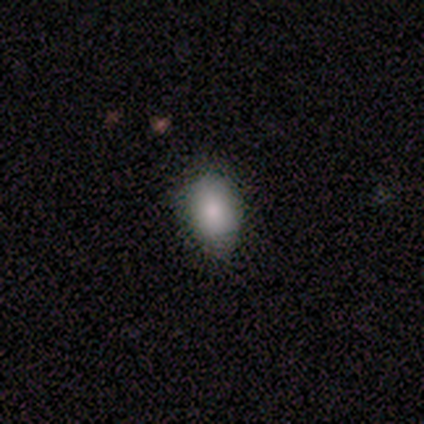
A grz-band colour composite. It shows a smooth galaxy with no disk features (79%) that is in between round and cigar-shaped (73%). Merging: none (100%).